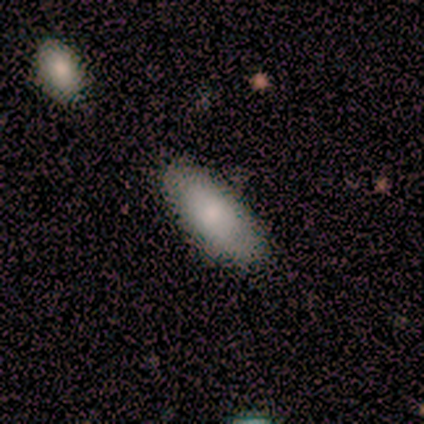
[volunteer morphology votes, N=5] smooth_or_featured: smooth (p=1.00)
how_rounded: in between (p=1.00)
merging: none (p=0.60) [alt: minor disturbance p=0.20]